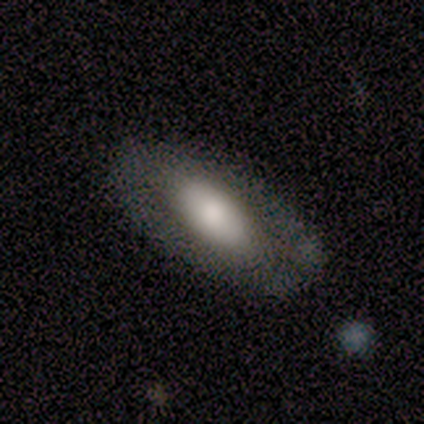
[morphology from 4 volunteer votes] Smooth or featured? smooth (75%)
How rounded? in between (100%)
Merging? none (75%)